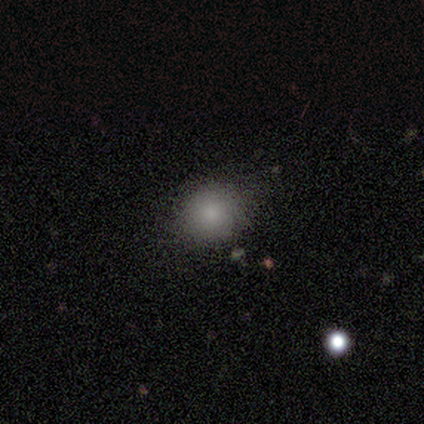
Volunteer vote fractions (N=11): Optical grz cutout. It shows a smooth galaxy with no disk features (91%) that is round (70%). Merging: none (70%).